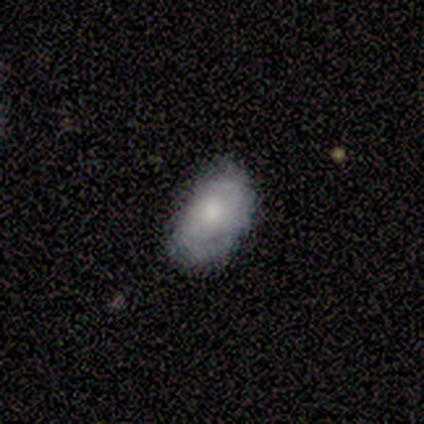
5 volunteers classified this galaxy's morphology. Volunteers were most divided on "spiral winding" (2-way tie): tight: 50%, medium: 50%, loose: 0%; "merging" (2-way tie): none: 40%, minor disturbance: 40%, major disturbance: 20%, merger: 0%. More confident: smooth or featured — featured or disk (100%); edge-on disk — no (100%); spiral arms — yes (80%); bulge size — moderate (80%); spiral arm count — 2 (75%); bar — no (60%).